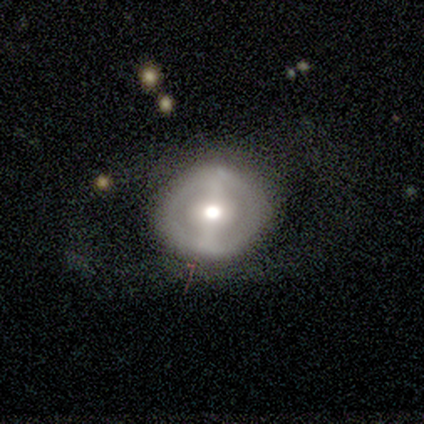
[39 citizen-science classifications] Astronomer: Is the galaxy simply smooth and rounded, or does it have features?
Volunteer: smooth — 51% (runner-up: featured or disk, 49%).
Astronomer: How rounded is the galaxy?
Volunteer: round — 80%.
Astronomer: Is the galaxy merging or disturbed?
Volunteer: none — 62%.